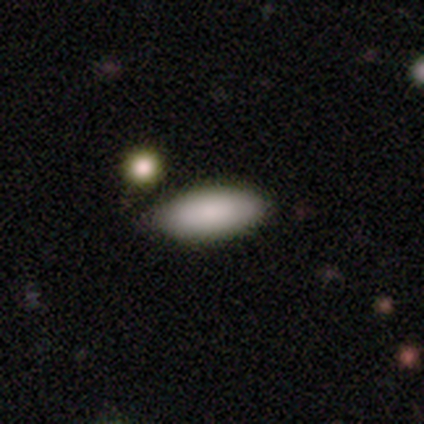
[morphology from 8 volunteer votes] type=smooth (100%); roundness=in between (75%); merging=none (88%).